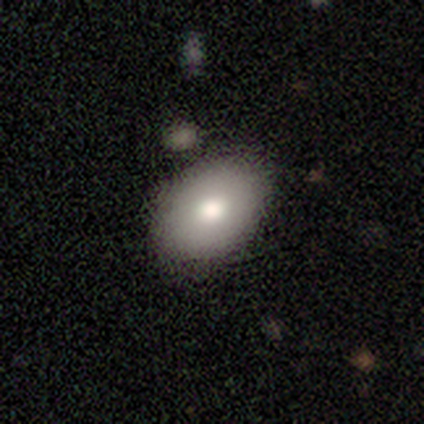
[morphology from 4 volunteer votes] smooth 50% (tied), featured or disk 50% (tied), star or artifact 0%. Down the decision tree: how rounded — round (50%, tied with in between); merging — none (75%).